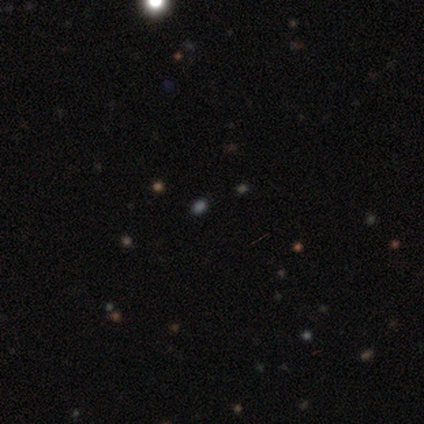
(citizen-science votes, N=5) Smooth or featured: smooth — 40% (tied with star or artifact — 40%)
How rounded: round — 50% (tied with in between — 50%)
Merging: none — 100%